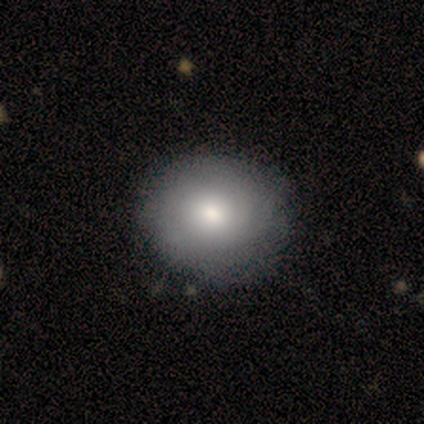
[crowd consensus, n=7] Smooth or featured: smooth — 57% (featured or disk — 29%)
How rounded: round — 100%
Merging: none — 83% (minor disturbance — 17%)